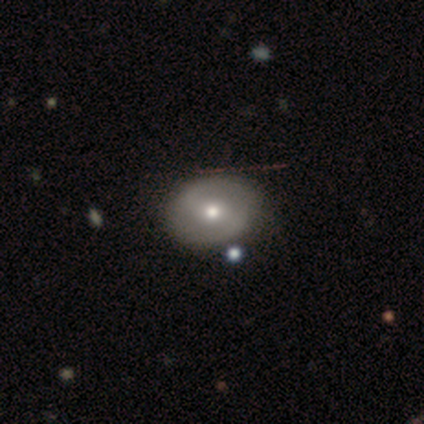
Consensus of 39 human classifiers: This is possibly a featured or disk galaxy (54%). It is clearly not viewed edge-on (90%). Bar: marginally strong (37%, tied with weak). Spiral arm pattern: likely yes (79%). Spiral arm count: clearly 2 (100%). Spiral winding: possibly medium (47%). Central bulge: clearly moderate (84%). Merging: likely none (74%).